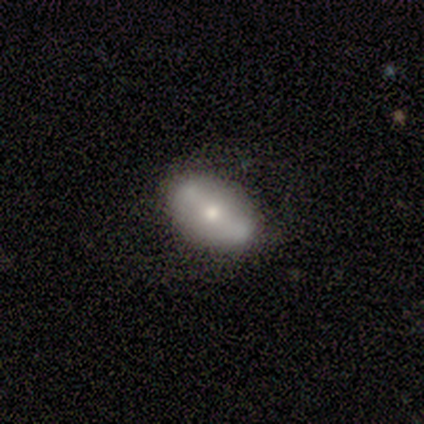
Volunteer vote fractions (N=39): Overall: featured or disk (59%; smooth 41%). Edge-on disk: no (91%). Bar: strong (57%; no 24%). Spiral arms: no (90%). Bulge size: moderate (67%). Merging: none (59%).